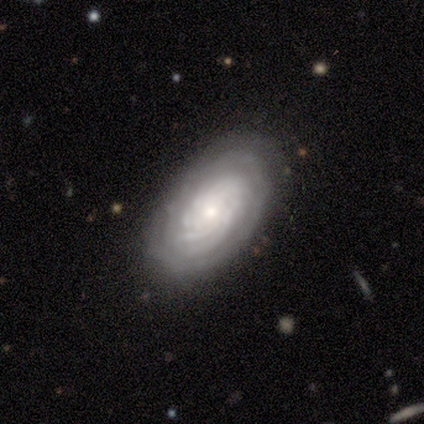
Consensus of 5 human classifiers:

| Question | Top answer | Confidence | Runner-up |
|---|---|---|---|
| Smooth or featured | featured or disk | 100% | — |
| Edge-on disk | no | 100% | — |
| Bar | no | 100% | — |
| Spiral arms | yes | 100% | — |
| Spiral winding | tight | 100% | — |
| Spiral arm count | more than 4 | 40% | 3 (20%) |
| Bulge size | small | 60% | large (20%) |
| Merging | none | 80% | minor disturbance (20%) |